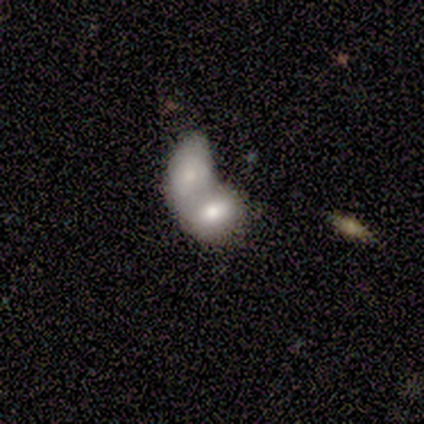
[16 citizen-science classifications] Smooth or featured? smooth (56%)
How rounded? in between (100%)
Merging? merger (73%)